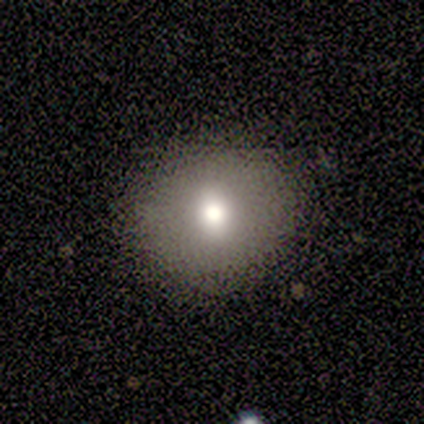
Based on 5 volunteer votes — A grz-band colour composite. It shows a smooth galaxy with no disk features (60%) that is round (100%). Merging: none (100%).